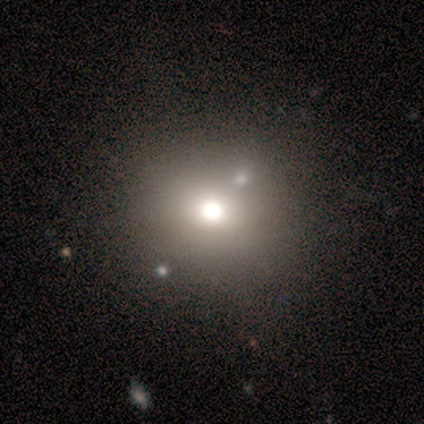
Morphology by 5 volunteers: Smooth or featured?
  - smooth: 60% *
  - star or artifact: 40%
  - featured or disk: 0%
How rounded?
  - round: 100% *
  - in between: 0%
  - cigar-shaped: 0%
Merging?
  - none: 33% * (tied)
  - minor disturbance: 33% * (tied)
  - merger: 33% * (tied)
  - major disturbance: 0%